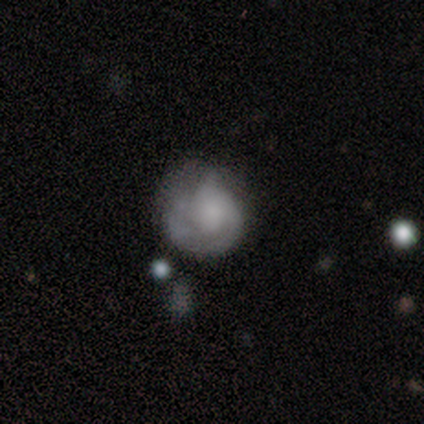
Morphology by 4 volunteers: Volunteers were most divided on "smooth or featured": smooth: 50%, featured or disk: 25%, star or artifact: 25%. More confident: how rounded — round (100%); merging — none (67%).